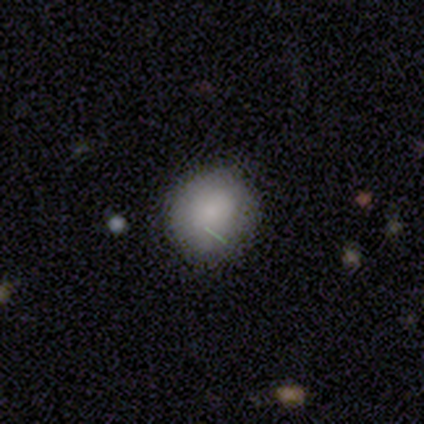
A smooth galaxy with no disk features (82%) that is round (100%).

Vote fractions:
- Smooth or featured? smooth: 82% / star or artifact: 13% / featured or disk: 5%
- How rounded? round: 100% / in between: 0% / cigar-shaped: 0%
- Merging? none: 88% / minor disturbance: 9% / major disturbance: 3% / merger: 0%